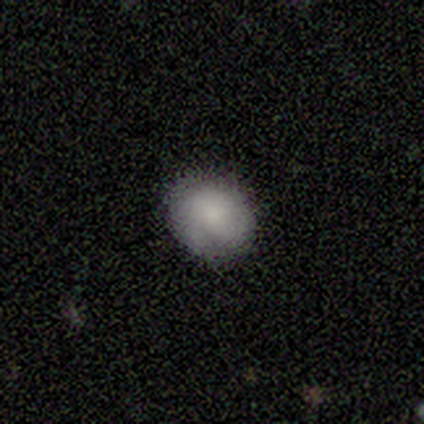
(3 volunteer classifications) Smooth or featured?
  - smooth: 67% *
  - star or artifact: 33%
  - featured or disk: 0%
How rounded?
  - round: 50% * (tied)
  - in between: 50% * (tied)
  - cigar-shaped: 0%
Merging?
  - none: 100% *
  - minor disturbance: 0%
  - major disturbance: 0%
  - merger: 0%